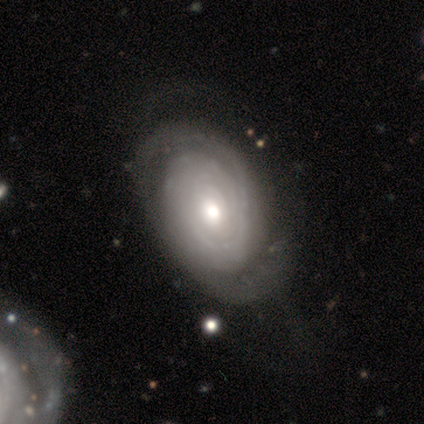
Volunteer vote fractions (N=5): Volunteers were most divided on "spiral arms" (2-way tie): yes: 50%, no: 50%; "spiral arm count" (2-way tie): 1: 50%, 4: 50%, 2: 0%, 3: 0%, more than 4: 0%, can't tell: 0%. More confident: edge-on disk — no (100%); spiral winding — tight (100%); smooth or featured — featured or disk (80%); bar — no (75%); bulge size — moderate (50%); merging — none (50%).